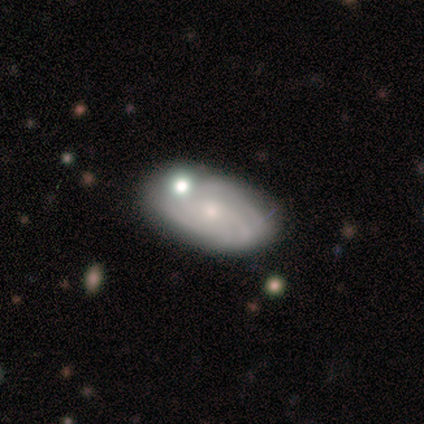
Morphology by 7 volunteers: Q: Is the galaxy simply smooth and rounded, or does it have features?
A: featured or disk — 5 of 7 (71%).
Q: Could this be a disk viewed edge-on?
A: no — 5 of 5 (100%).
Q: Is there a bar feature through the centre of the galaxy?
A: no — 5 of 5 (100%).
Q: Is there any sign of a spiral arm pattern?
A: yes — 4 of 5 (80%).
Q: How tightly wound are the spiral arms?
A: tight — 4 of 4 (100%).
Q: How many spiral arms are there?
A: can't tell — 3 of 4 (75%).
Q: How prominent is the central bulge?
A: small — 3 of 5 (60%).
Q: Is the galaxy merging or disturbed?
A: none — 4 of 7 (57%).